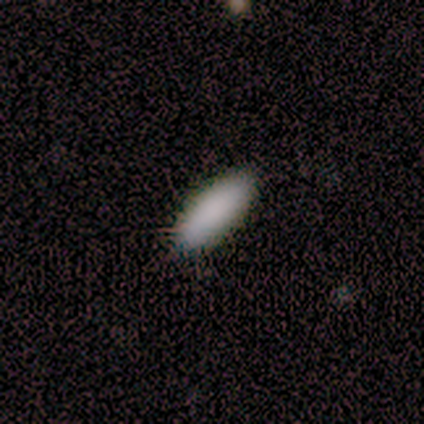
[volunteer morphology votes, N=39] A smooth galaxy with no disk features (90%) that is in between round and cigar-shaped (60%). Merging: none (90%).